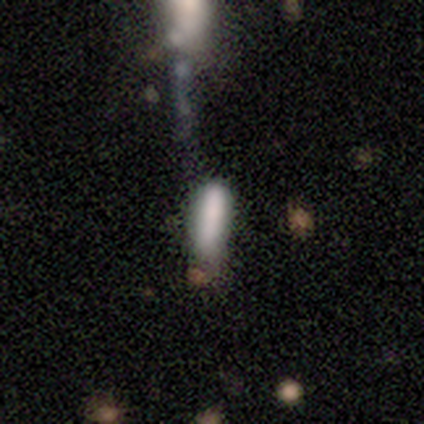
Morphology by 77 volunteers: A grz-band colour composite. It shows a smooth galaxy with no disk features (70%) that is in between round and cigar-shaped (54%). Merging: none (22%).